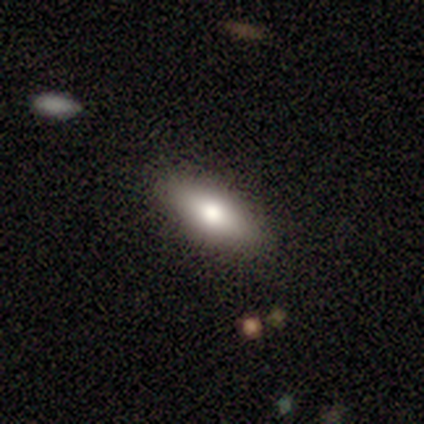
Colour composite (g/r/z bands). It shows a smooth galaxy with no disk features (80%) that is in between round and cigar-shaped (100%). Merging: none (100%).